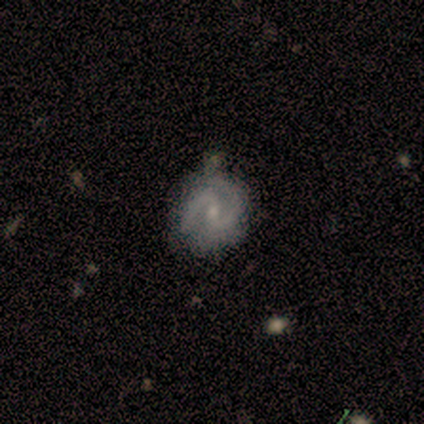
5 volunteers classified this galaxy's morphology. This appears to be a featured or disk galaxy (80%) with a weak bar (50%), 2 (100%) medium (75%) spiral arms (100%) and a small central bulge (75%). Merging: none (80%).